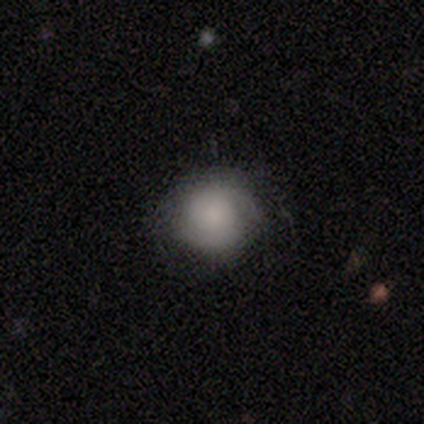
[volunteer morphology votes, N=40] Smooth or featured? smooth (62%)
How rounded? round (88%)
Merging? none (71%)